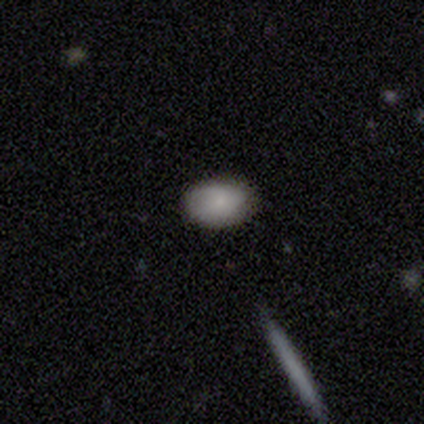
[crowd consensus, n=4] Overall: smooth (100%). How rounded: in between (100%). Merging: none (75%).